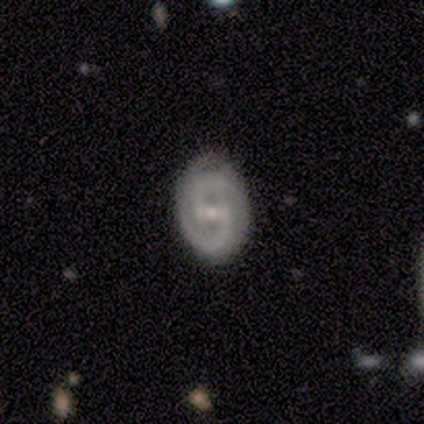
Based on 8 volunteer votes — Smooth or featured: featured or disk — 100%
Edge-on disk: no — 100%
Bar: strong — 62% (weak — 25%)
Spiral arms: yes — 100%
Spiral winding: medium — 50% (tight — 38%)
Spiral arm count: 2 — 88% (3 — 12%)
Bulge size: small — 88% (moderate — 12%)
Merging: none — 88% (minor disturbance — 12%)